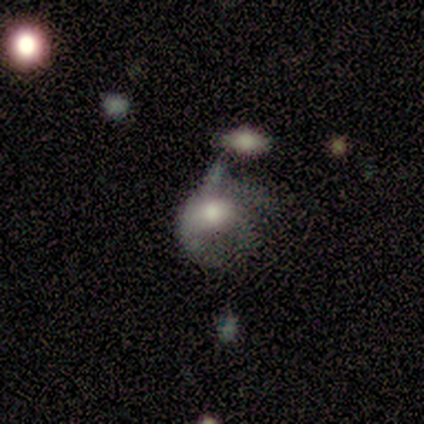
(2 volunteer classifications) Smooth or featured? featured or disk (100%)
Edge-on disk? no (100%)
Bar? no (100%)
Spiral arms? yes (50%, tied with no)
Spiral winding? medium (100%)
Spiral arm count? can't tell (100%)
Bulge size? moderate (50%, tied with small)
Merging? major disturbance (100%)